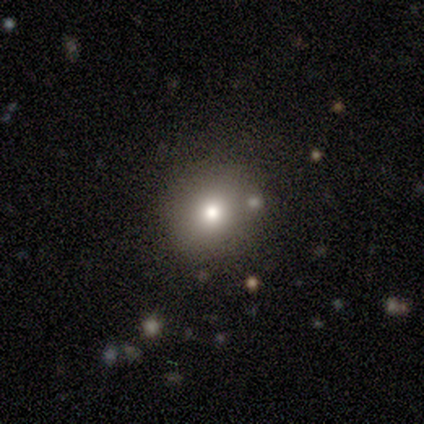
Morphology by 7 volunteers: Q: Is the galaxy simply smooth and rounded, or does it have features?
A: smooth — 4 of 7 (57%).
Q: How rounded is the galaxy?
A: round — 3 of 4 (75%).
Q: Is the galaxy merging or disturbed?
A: none — 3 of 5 (60%).